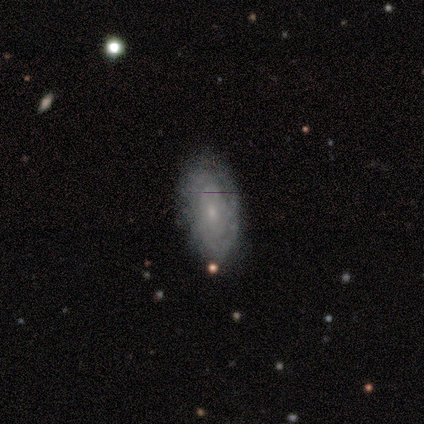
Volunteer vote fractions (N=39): Smooth or featured? 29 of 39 (74%) said featured or disk. Edge-on disk? 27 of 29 (93%) said no. Bar? 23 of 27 (85%) said no. Spiral arms? 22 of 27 (81%) said yes. Spiral winding? 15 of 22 (68%) said tight. Spiral arm count? 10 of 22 (45%) said can't tell. Bulge size? 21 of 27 (78%) said small. Merging? 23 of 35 (66%) said none.